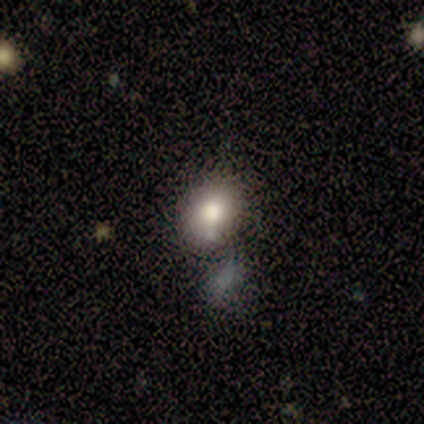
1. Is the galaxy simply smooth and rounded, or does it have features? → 82% smooth, 13% featured or disk, 5% star or artifact.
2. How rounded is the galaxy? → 65% in between, 35% round, 0% cigar-shaped.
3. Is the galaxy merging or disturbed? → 56% none, 22% merger, 17% minor disturbance, 6% major disturbance.